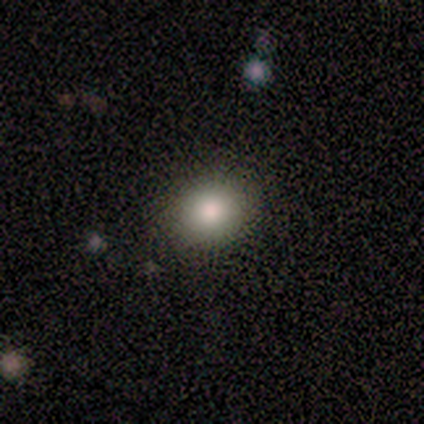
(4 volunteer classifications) Overall: smooth (50%, tied with featured or disk). How rounded: round (50%, tied with in between). Merging: none (100%).